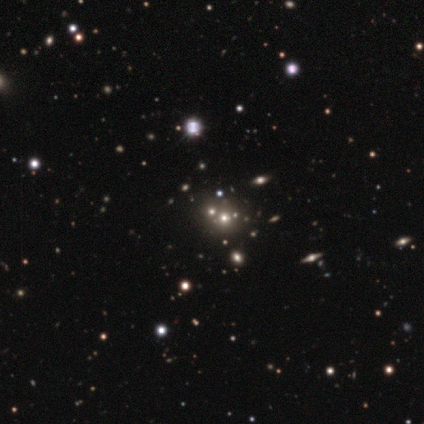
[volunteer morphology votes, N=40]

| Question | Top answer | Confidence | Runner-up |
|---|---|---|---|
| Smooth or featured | smooth | 48% | star or artifact (42%) |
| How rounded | round | 74% | in between (26%) |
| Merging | none | 70% | merger (22%) |